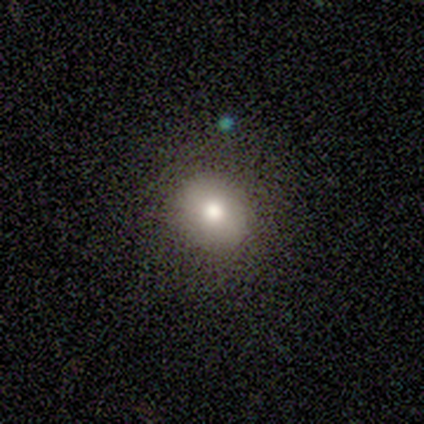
A smooth galaxy with no disk features (80%) that is round (100%). Merging: none (75%).